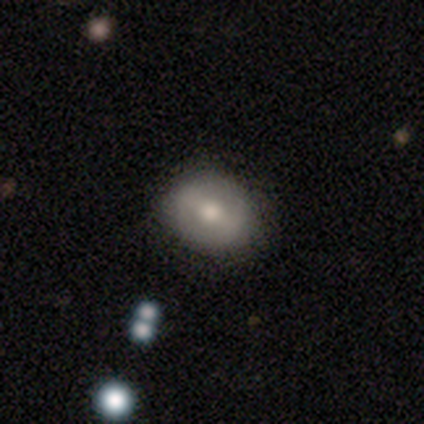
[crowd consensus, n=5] Smooth or featured? smooth (100%)
How rounded? in between (80%)
Merging? none (100%)